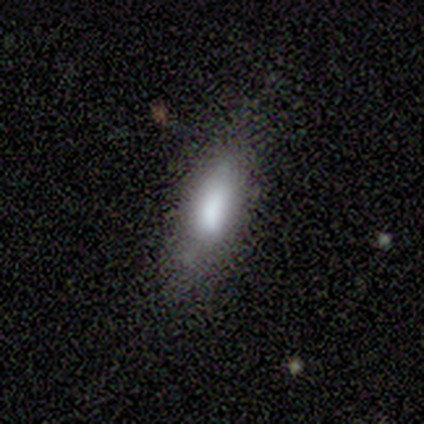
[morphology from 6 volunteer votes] This appears to be a smooth galaxy with no disk features (67%) that is in between round and cigar-shaped (75%). Merging: none (50%, tied with minor disturbance).